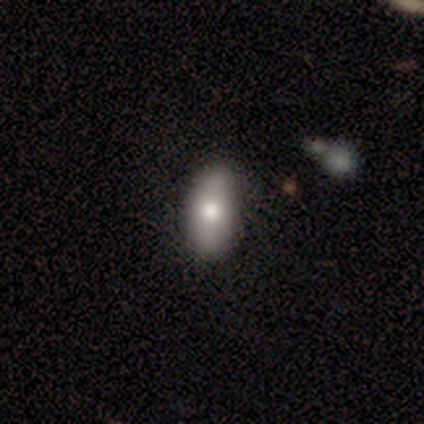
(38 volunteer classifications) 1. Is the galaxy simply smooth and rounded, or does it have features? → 63% smooth, 29% featured or disk, 8% star or artifact.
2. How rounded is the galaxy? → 88% in between, 8% cigar-shaped, 4% round.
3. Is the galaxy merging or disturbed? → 60% none, 9% minor disturbance, 6% merger, 3% major disturbance.